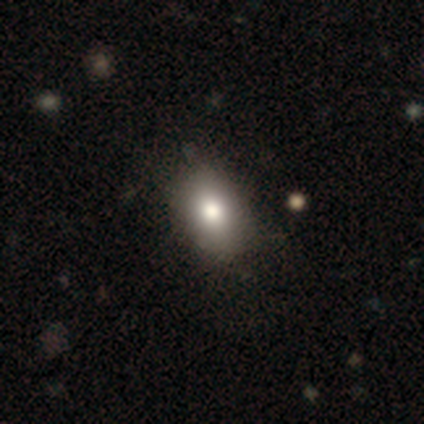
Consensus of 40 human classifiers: Volunteers were most divided on "merging": none: 58%, minor disturbance: 11%, major disturbance: 3%, merger: 3%. More confident: smooth or featured — smooth (78%); how rounded — in between (77%).